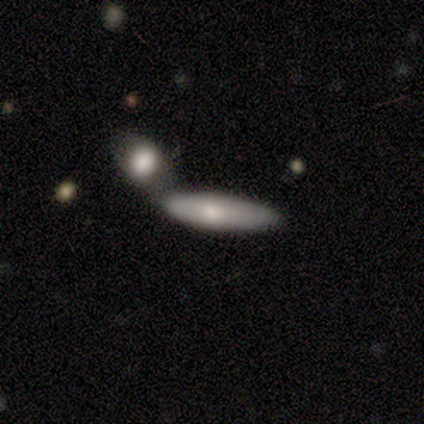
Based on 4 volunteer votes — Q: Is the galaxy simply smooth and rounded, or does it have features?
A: smooth — 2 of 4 (50%, tied with featured or disk).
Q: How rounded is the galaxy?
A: in between — 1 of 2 (50%, tied with cigar-shaped).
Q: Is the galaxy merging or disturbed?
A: none — 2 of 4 (50%, tied with merger).